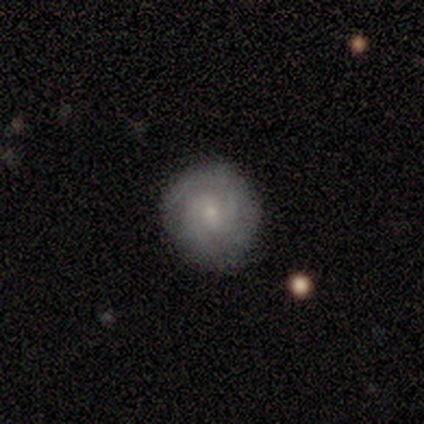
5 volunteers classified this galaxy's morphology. A featured or disk galaxy (60%) with a weak bar (67%), 2 (67%) tight (67%) spiral arms (100%) and a small central bulge (67%).

Vote fractions:
- Smooth or featured? featured or disk: 60% / smooth: 40% / star or artifact: 0%
- Edge-on disk? no: 100% / yes: 0%
- Bar? weak: 67% / no: 33% / strong: 0%
- Spiral arms? yes: 100% / no: 0%
- Spiral winding? tight: 67% / medium: 33% / loose: 0%
- Spiral arm count? 2: 67% / can't tell: 33% / 1: 0% / 3: 0% / 4: 0% / more than 4: 0%
- Bulge size? small: 67% / moderate: 33% / dominant: 0% / large: 0% / none: 0%
- Merging? none: 60% / minor disturbance: 20% / major disturbance: 20% / merger: 0%